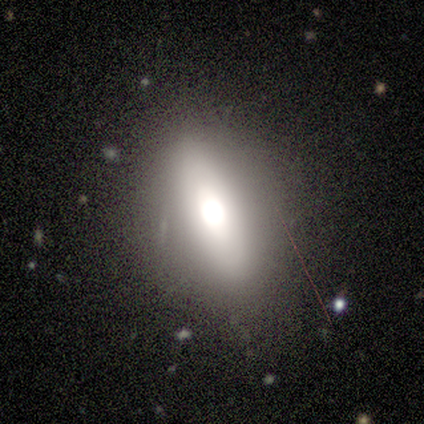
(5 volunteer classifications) smooth-or-featured: featured or disk: 60% | smooth: 40% | star or artifact: 0%
  disk-edge-on: no: 67% | yes: 33%
    bar: no: 100% | strong: 0% | weak: 0%
    has-spiral-arms: no: 100% | yes: 0%
    bulge-size: large: 100% | dominant: 0% | moderate: 0% | small: 0% | none: 0%
  merging: none: 100% | minor disturbance: 0% | major disturbance: 0% | merger: 0%